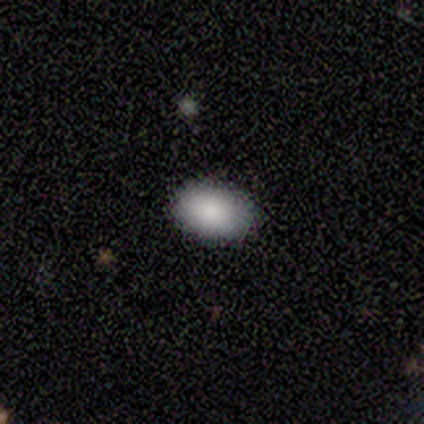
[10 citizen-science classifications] This is clearly a smooth galaxy (100%). How rounded: clearly in between (100%). Merging: clearly none (100%).